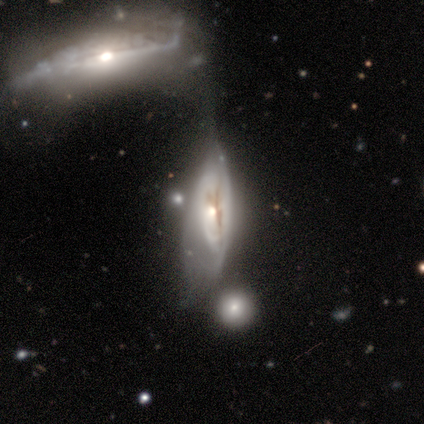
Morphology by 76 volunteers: Smooth or featured?
  - featured or disk: 83% *
  - smooth: 14%
  - star or artifact: 3%
Edge-on disk?
  - no: 60% *
  - yes: 40%
Bar?
  - no: 79% *
  - weak: 13%
  - strong: 8%
Spiral arms?
  - yes: 58% *
  - no: 42%
Spiral winding?
  - tight: 50% *
  - medium: 36%
  - loose: 14%
Spiral arm count?
  - can't tell: 73% *
  - 2: 14%
  - 1: 9%
  - 3: 5%
  - 4: 0%
  - more than 4: 0%
Bulge size?
  - moderate: 50% *
  - small: 39%
  - none: 5%
  - dominant: 3%
  - large: 3%
Merging?
  - merger: 39% *
  - major disturbance: 23%
  - minor disturbance: 19%
  - none: 3%